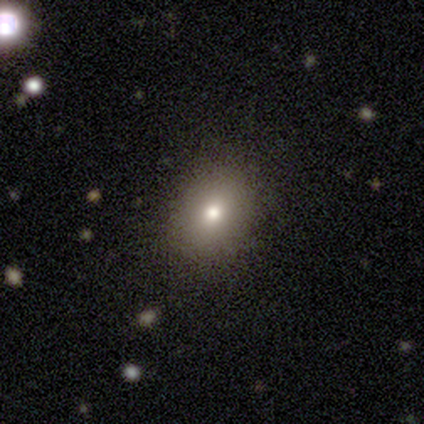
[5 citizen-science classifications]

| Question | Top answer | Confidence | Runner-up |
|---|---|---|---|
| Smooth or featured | smooth | 80% | featured or disk (20%) |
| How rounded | in between | 75% | round (25%) |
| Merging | none | 100% | — |